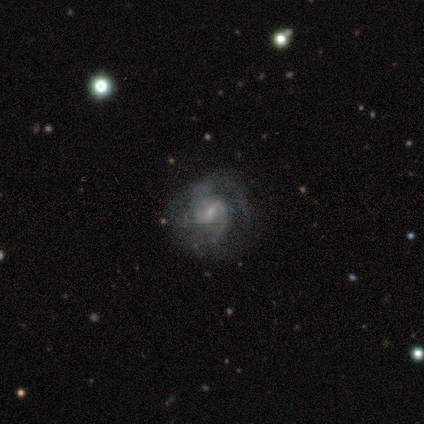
A featured or disk galaxy (80%) with a weak bar (75%), 2 (75%) tight (50%, tied with medium) spiral arms (100%) and a small central bulge (75%). Merging: none (100%).